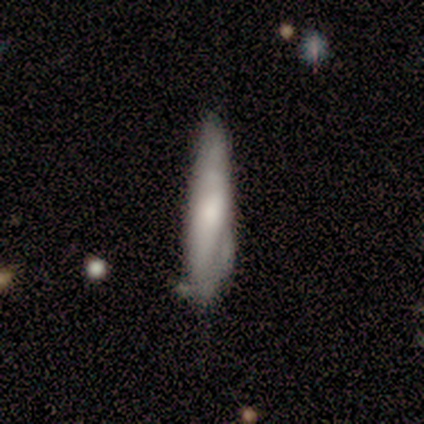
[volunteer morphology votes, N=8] Smooth or featured? 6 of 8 (75%) said smooth. How rounded? 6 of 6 (100%) said cigar-shaped. Merging? 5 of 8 (62%) said minor disturbance.